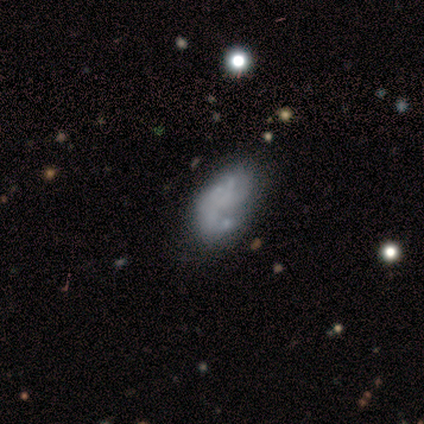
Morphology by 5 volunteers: smooth-or-featured: featured or disk: 60% | smooth: 40% | star or artifact: 0%
  disk-edge-on: no: 100% | yes: 0%
    bar: no: 67% | weak: 33% | strong: 0%
    has-spiral-arms: yes: 67% | no: 33%
      spiral-winding: tight: 50% (tied) | medium: 50% (tied) | loose: 0%
      spiral-arm-count: 2: 50% (tied) | can't tell: 50% (tied) | 1: 0% | 3: 0% | 4: 0% | more than 4: 0%
    bulge-size: none: 100% | dominant: 0% | large: 0% | moderate: 0% | small: 0%
  merging: none: 80% | minor disturbance: 20% | major disturbance: 0% | merger: 0%